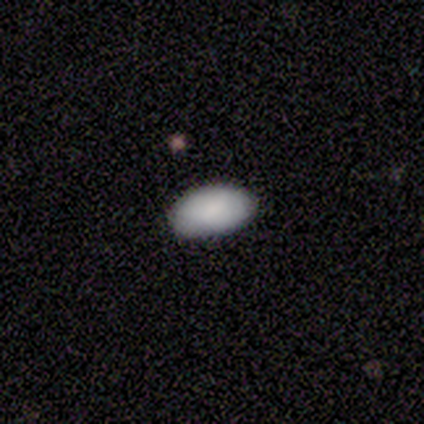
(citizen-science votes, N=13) A smooth galaxy with no disk features (100%) that is in between round and cigar-shaped (100%).

Vote fractions:
- Smooth or featured? smooth: 100% / featured or disk: 0% / star or artifact: 0%
- How rounded? in between: 100% / round: 0% / cigar-shaped: 0%
- Merging? none: 69% / minor disturbance: 31% / major disturbance: 0% / merger: 0%